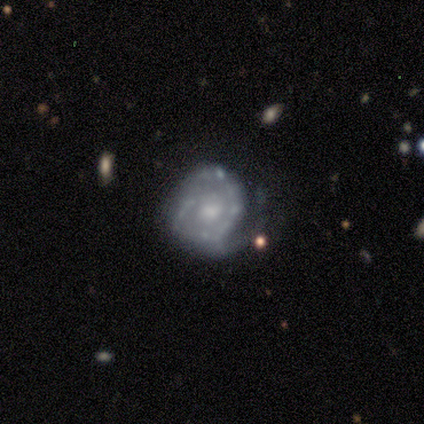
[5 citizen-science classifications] Morphology: type=featured or disk (100%); edge-on=no (100%); bar=no (80%); spiral arms=yes (100%); winding=tight (60%); arm count=can't tell (40%); bulge=moderate (100%); merging=none (60%).